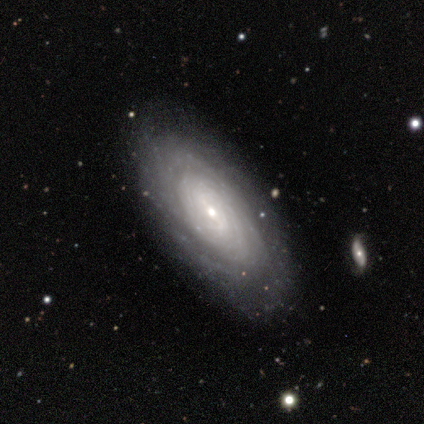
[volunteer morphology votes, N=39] type=featured or disk (82%); edge-on=no (94%); bar=weak (60%); spiral arms=yes (90%); winding=tight (78%); arm count=can't tell (48%); bulge=small (63%); merging=none (68%).